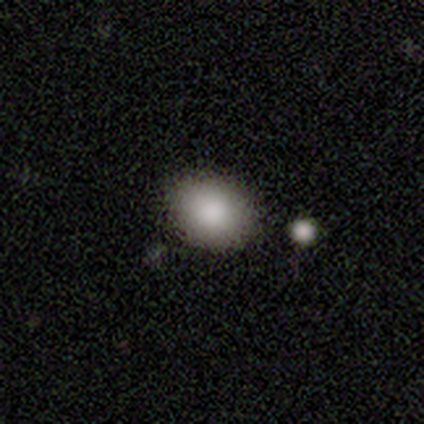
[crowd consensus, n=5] This appears to be a smooth galaxy with no disk features (100%) that is in between round and cigar-shaped (100%). Merging: none (100%).